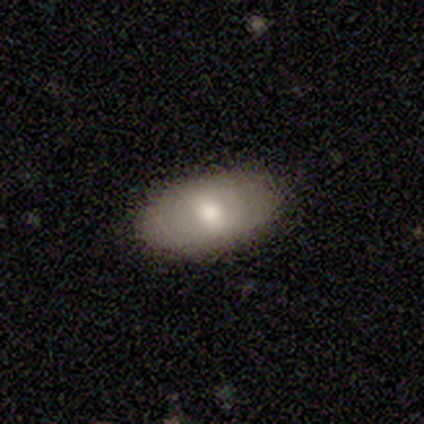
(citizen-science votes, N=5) smooth-or-featured: smooth: 80% | featured or disk: 20% | star or artifact: 0%
  how-rounded: in between: 100% | round: 0% | cigar-shaped: 0%
  merging: none: 100% | minor disturbance: 0% | major disturbance: 0% | merger: 0%